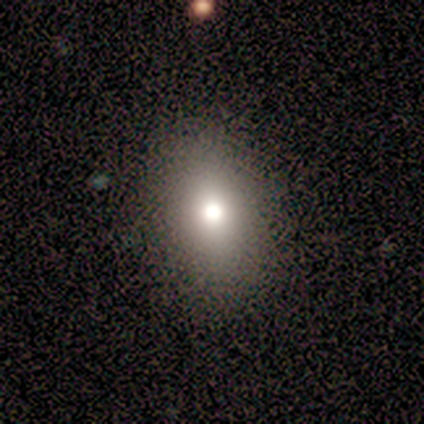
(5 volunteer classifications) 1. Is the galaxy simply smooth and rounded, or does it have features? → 80% smooth, 20% featured or disk, 0% star or artifact.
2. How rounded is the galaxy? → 50% round (tied), 50% in between (tied), 0% cigar-shaped.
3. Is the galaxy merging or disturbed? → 100% none, 0% minor disturbance, 0% major disturbance, 0% merger.